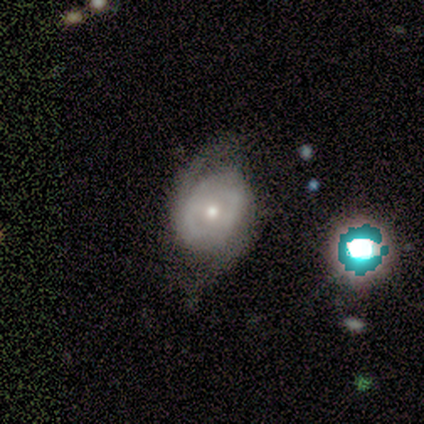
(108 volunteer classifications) This appears to be a featured or disk galaxy (74%) with no bar (73%), 2 (72%) medium (52%) spiral arms (88%) and a small central bulge (54%). Merging: none (59%).